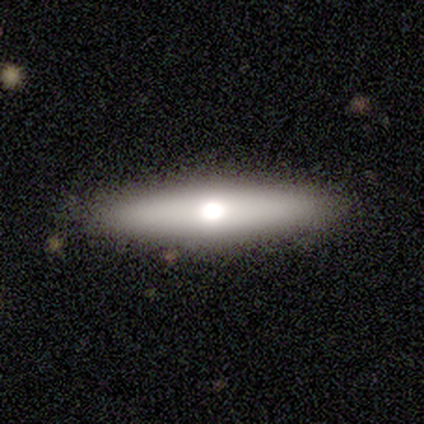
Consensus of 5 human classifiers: smooth-or-featured: smooth: 60% | featured or disk: 40% | star or artifact: 0%
  how-rounded: cigar-shaped: 100% | round: 0% | in between: 0%
  merging: none: 80% | merger: 20% | minor disturbance: 0% | major disturbance: 0%